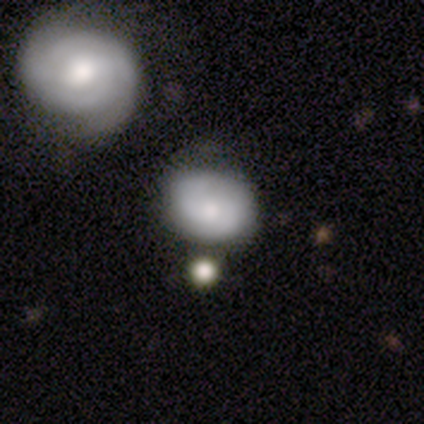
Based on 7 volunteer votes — A smooth galaxy with no disk features (71%) that is round (60%).

Vote fractions:
- Smooth or featured? smooth: 71% / featured or disk: 29% / star or artifact: 0%
- How rounded? round: 60% / in between: 40% / cigar-shaped: 0%
- Merging? none: 43% / minor disturbance: 29% / major disturbance: 14% / merger: 14%